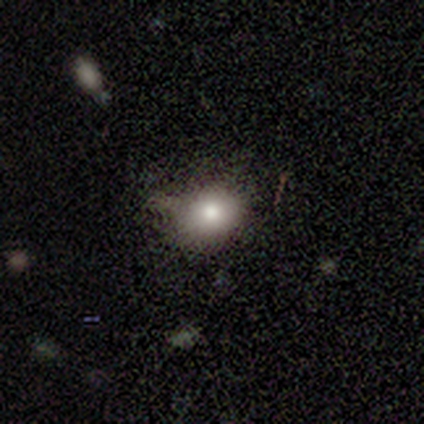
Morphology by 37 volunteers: smooth 81%, star or artifact 11%, featured or disk 8%. Down the decision tree: how rounded — round (57%); merging — none (82%).